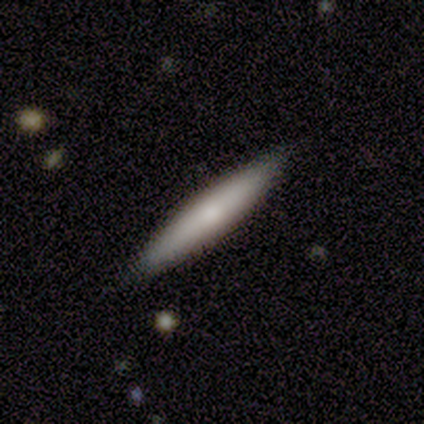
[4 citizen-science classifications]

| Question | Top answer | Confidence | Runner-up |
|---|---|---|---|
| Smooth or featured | smooth | 50% | tied: featured or disk (50%) |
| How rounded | in between | 50% | tied: cigar-shaped (50%) |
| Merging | none | 75% | minor disturbance (25%) |